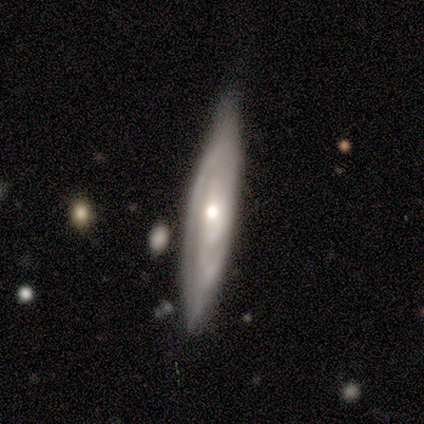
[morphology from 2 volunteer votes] featured or disk 100%, smooth 0%, star or artifact 0%. Down the decision tree: edge-on disk — yes (100%); edge-on bulge — rounded (100%); merging — none (100%).